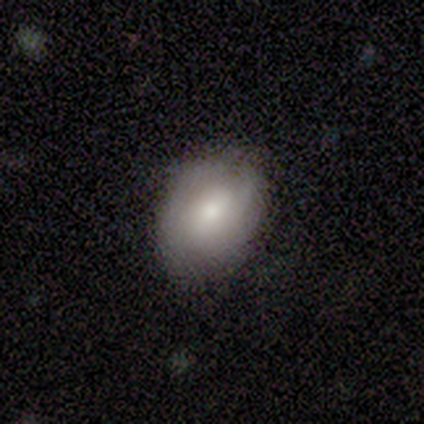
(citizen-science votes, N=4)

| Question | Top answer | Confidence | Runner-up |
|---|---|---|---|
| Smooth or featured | star or artifact | 75% | featured or disk (25%) |